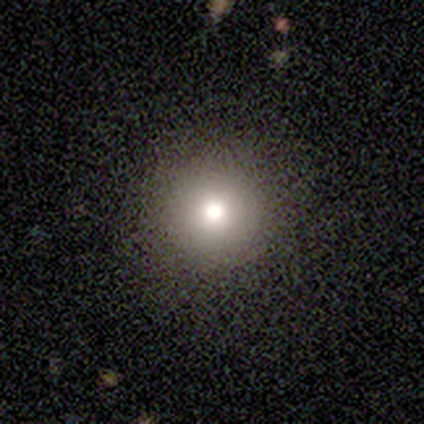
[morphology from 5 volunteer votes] Smooth or featured?
  - smooth: 80% *
  - featured or disk: 20%
  - star or artifact: 0%
How rounded?
  - round: 100% *
  - in between: 0%
  - cigar-shaped: 0%
Merging?
  - none: 100% *
  - minor disturbance: 0%
  - major disturbance: 0%
  - merger: 0%